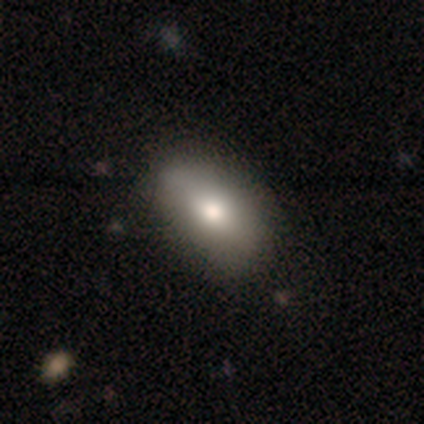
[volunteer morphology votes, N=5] Smooth or featured? smooth (100%)
How rounded? in between (100%)
Merging? none (80%)